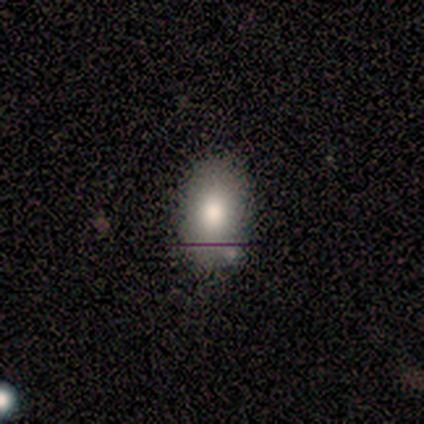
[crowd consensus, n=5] Smooth or featured: smooth — 80% (featured or disk — 20%)
How rounded: in between — 100%
Merging: none — 80% (minor disturbance — 20%)